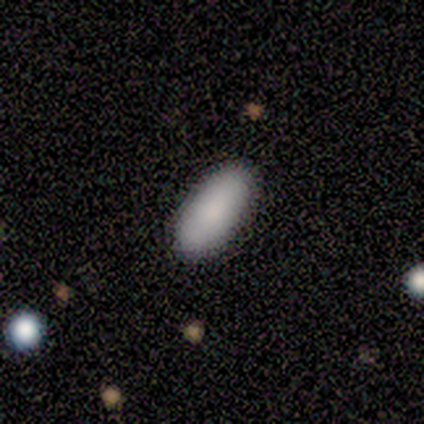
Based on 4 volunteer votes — Morphology: type=smooth (100%); roundness=in between (75%); merging=none (100%).